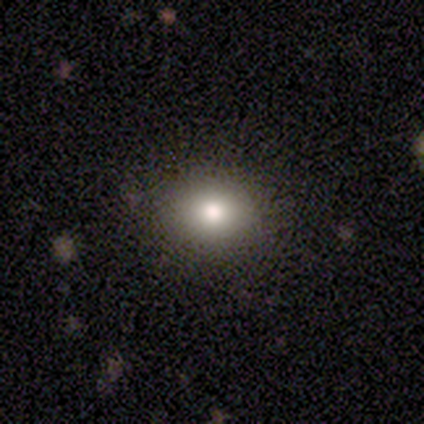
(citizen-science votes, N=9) Volunteers were most divided on "smooth or featured": smooth: 56%, featured or disk: 22%, star or artifact: 22%. More confident: merging — none (100%); how rounded — round (80%).